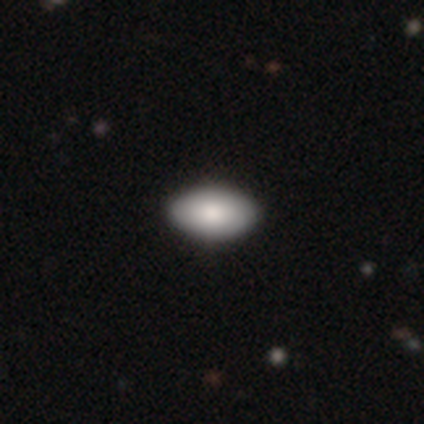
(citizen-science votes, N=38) Q: Smooth or featured?
A: smooth (89%); runner-up: featured or disk (8%)
Q: How rounded?
A: in between (100%)
Q: Merging?
A: none (76%)